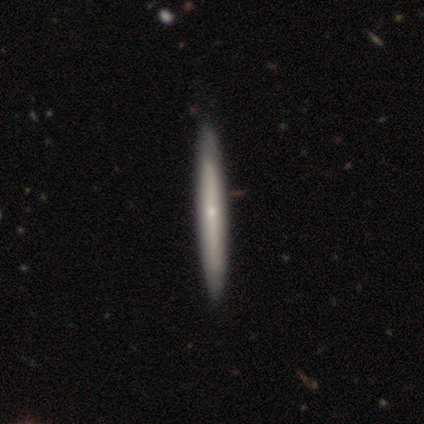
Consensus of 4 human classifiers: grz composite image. It shows a featured or disk galaxy (75%) viewed edge-on (100%) with a rounded central bulge (100%). Merging: none (100%).